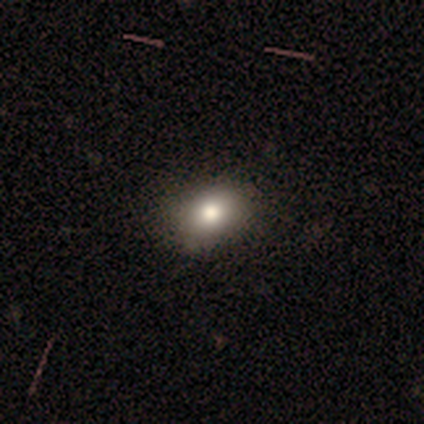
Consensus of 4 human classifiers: smooth 100%, featured or disk 0%, star or artifact 0%. Down the decision tree: how rounded — round (50%, tied with in between); merging — none (100%).